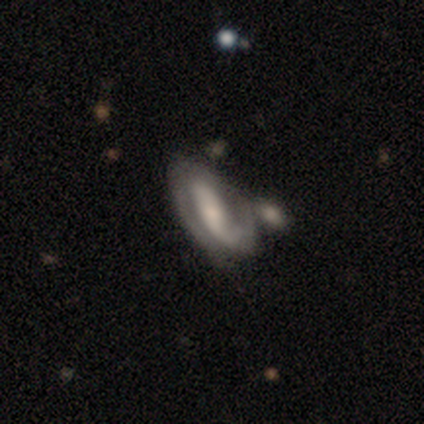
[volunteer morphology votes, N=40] Smooth or featured? featured or disk (80%)
Edge-on disk? no (97%)
Bar? strong (58%)
Spiral arms? yes (87%)
Spiral winding? tight (48%)
Spiral arm count? 2 (89%)
Bulge size? small (35%)
Merging? none (36%)